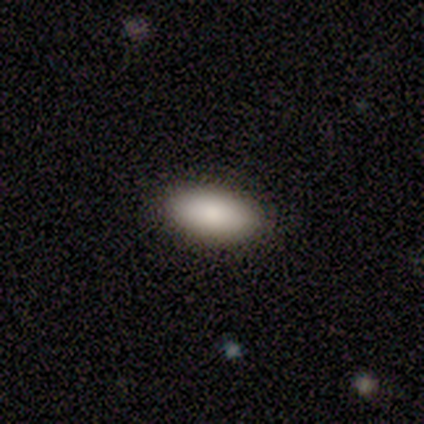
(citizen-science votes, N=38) Q: Smooth or featured?
A: smooth (82%); runner-up: star or artifact (11%)
Q: How rounded?
A: in between (100%)
Q: Merging?
A: none (97%); runner-up: minor disturbance (3%)